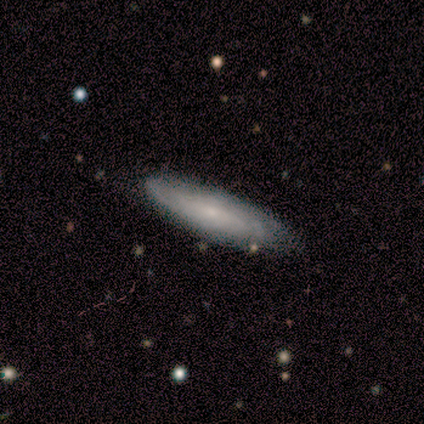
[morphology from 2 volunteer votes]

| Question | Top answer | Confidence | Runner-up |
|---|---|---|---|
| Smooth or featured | smooth | 50% | tied: featured or disk (50%) |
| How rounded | cigar-shaped | 100% | — |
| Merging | none | 100% | — |